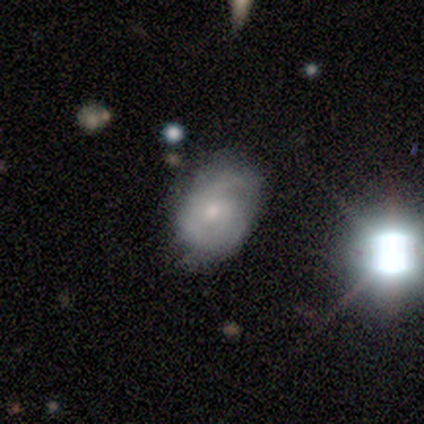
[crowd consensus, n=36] This is possibly a featured or disk galaxy (56%). It is clearly not viewed edge-on (100%). Bar: likely no (60%). Spiral arm pattern: clearly yes (85%). Spiral arm count: marginally can't tell (41%). Spiral winding: possibly medium (47%). Central bulge: likely small (65%). Merging: likely none (71%).